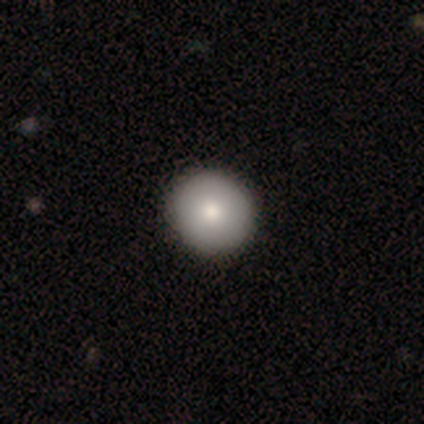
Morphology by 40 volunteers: smooth_or_featured: smooth (p=0.88) [alt: featured or disk p=0.12]
how_rounded: round (p=0.91) [alt: in between p=0.09]
merging: none (p=0.70) [alt: minor disturbance p=0.03]